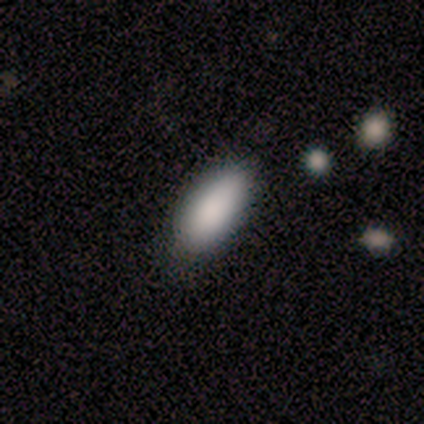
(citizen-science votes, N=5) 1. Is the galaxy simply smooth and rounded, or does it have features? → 80% smooth, 20% featured or disk, 0% star or artifact.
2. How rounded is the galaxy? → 75% in between, 25% cigar-shaped, 0% round.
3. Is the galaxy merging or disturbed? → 60% none, 20% minor disturbance, 20% merger, 0% major disturbance.